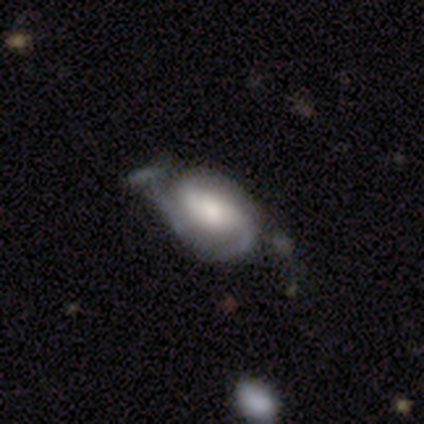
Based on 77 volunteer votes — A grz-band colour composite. It shows a featured or disk galaxy (77%) with no bar (50%), 2 (85%) tight (44%) spiral arms (96%) and a large central bulge (52%). Merging: none (28%).